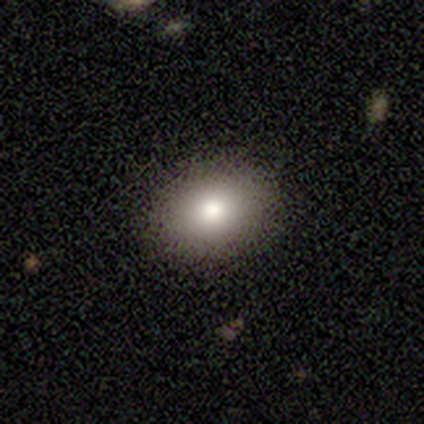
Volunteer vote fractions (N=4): smooth_or_featured: smooth (p=0.75) [alt: star or artifact p=0.25]
how_rounded: in between (p=0.67) [alt: round p=0.33]
merging: none (p=1.00)